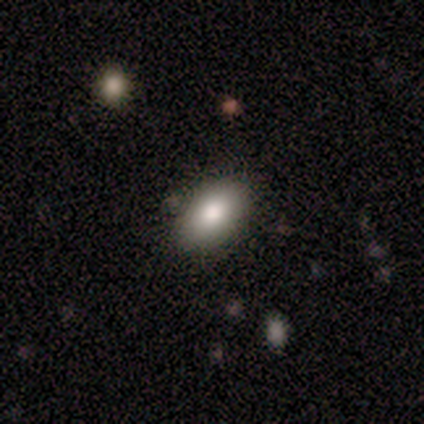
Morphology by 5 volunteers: This is likely a smooth galaxy (60%). How rounded: clearly in between (100%). Merging: likely none (75%).